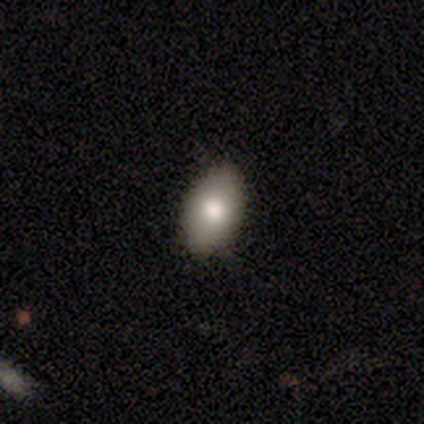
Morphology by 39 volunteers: Overall: smooth (85%). How rounded: in between (100%). Merging: none (81%).